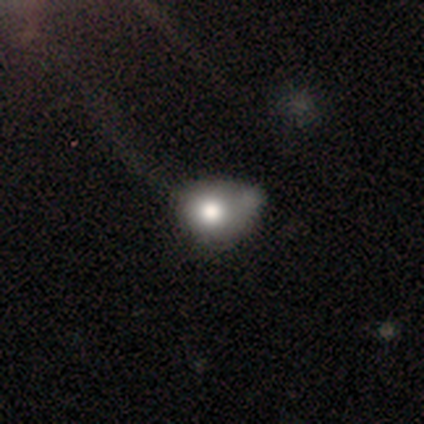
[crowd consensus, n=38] smooth-or-featured: smooth: 76% | featured or disk: 24% | star or artifact: 0%
  how-rounded: round: 52% | in between: 48% | cigar-shaped: 0%
  merging: minor disturbance: 21% (tied) | major disturbance: 21% (tied) | none: 16% | merger: 16%